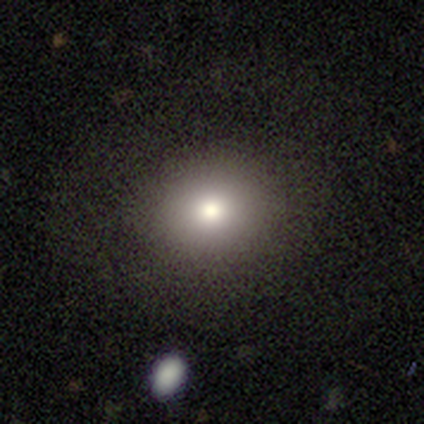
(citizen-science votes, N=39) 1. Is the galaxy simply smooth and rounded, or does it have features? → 79% smooth, 13% featured or disk, 8% star or artifact.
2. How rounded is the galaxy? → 68% round, 32% in between, 0% cigar-shaped.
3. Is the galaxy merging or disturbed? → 89% none, 11% minor disturbance, 0% major disturbance, 0% merger.